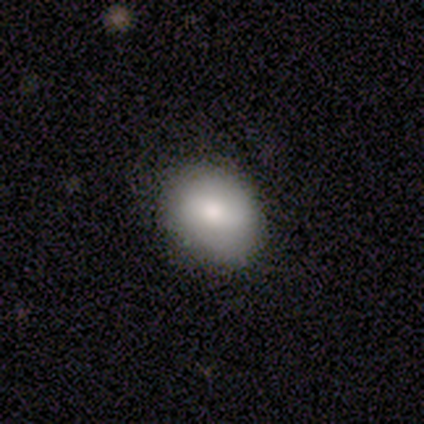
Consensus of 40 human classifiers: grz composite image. It shows a smooth galaxy with no disk features (75%) that is in between round and cigar-shaped (70%). Merging: none (78%).